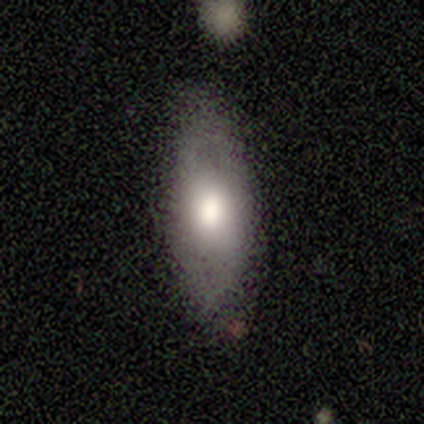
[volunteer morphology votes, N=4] type=smooth (50%, tied with featured or disk); roundness=in between (100%); merging=none (75%).